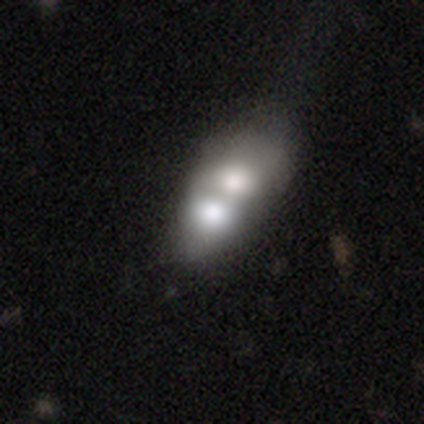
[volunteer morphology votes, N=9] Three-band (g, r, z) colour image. It shows a smooth galaxy with no disk features (67%) that is in between round and cigar-shaped (100%). Merging: merger (100%).